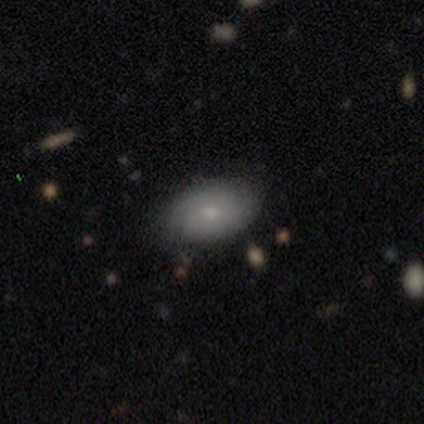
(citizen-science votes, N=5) Q: Smooth or featured?
A: smooth (60%); runner-up: featured or disk (40%)
Q: How rounded?
A: in between (100%)
Q: Merging?
A: none (80%); runner-up: minor disturbance (20%)